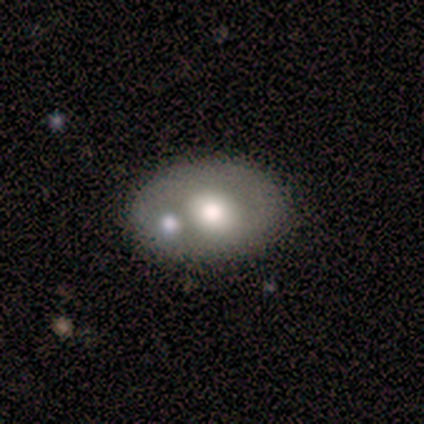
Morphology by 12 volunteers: A featured or disk galaxy (58%) with no bar (100%), no spiral arms (83%) and a large central bulge (50%, tied with moderate).

Vote fractions:
- Smooth or featured? featured or disk: 58% / smooth: 42% / star or artifact: 0%
- Edge-on disk? no: 86% / yes: 14%
- Bar? no: 100% / strong: 0% / weak: 0%
- Spiral arms? no: 83% / yes: 17%
- Bulge size? large: 50% (tied) / moderate: 50% (tied) / dominant: 0% / small: 0% / none: 0%
- Merging? none: 58% / merger: 33% / minor disturbance: 8% / major disturbance: 0%